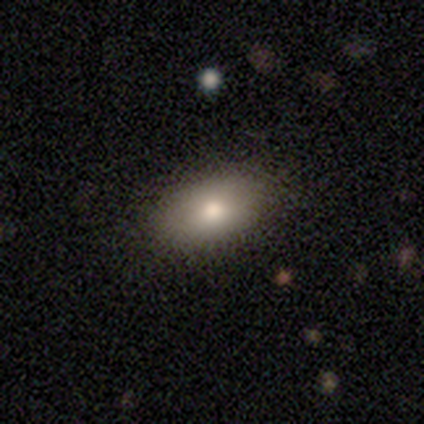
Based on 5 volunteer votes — Q: Smooth or featured?
A: smooth (60%); runner-up: featured or disk (40%)
Q: How rounded?
A: in between (100%)
Q: Merging?
A: none (100%)